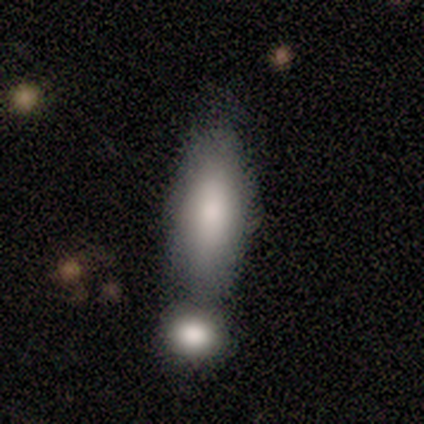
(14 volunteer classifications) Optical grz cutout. It shows a smooth galaxy with no disk features (100%) that is in between round and cigar-shaped (93%). Merging: merger (43%).